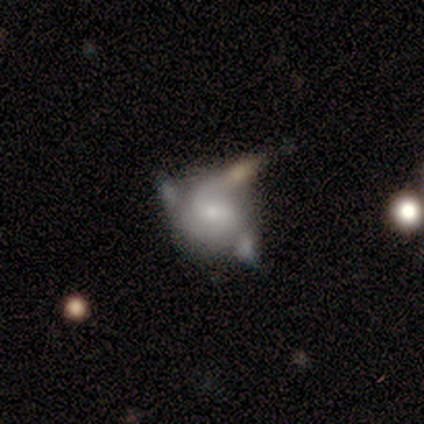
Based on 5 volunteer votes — smooth_or_featured: featured or disk (p=1.00)
disk_edge_on: no (p=0.80) [alt: yes p=0.20]
bar: no (p=0.75) [alt: strong p=0.25]
has_spiral_arms: yes (p=1.00)
spiral_winding: medium (p=0.50) [alt: tight p=0.25]
spiral_arm_count: 3 (p=0.75) [alt: 2 p=0.25]
bulge_size: small (p=0.75) [alt: moderate p=0.25]
merging: none (p=0.40) [tied with: merger p=0.40]